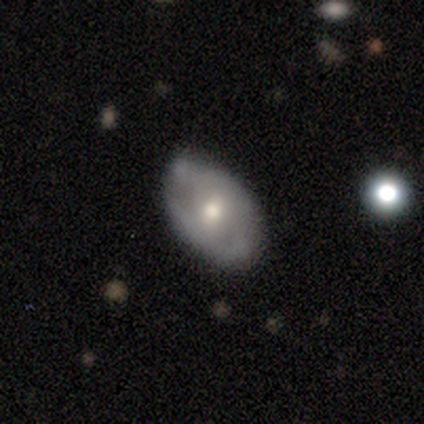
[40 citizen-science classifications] smooth-or-featured: featured or disk: 57% | smooth: 30% | star or artifact: 12%
  disk-edge-on: no: 91% | yes: 9%
    bar: no: 62% | weak: 38% | strong: 0%
    has-spiral-arms: yes: 62% | no: 38%
      spiral-winding: tight: 54% | loose: 31% | medium: 15%
      spiral-arm-count: 2: 54% | can't tell: 38% | 1: 8% | 3: 0% | 4: 0% | more than 4: 0%
    bulge-size: moderate: 62% | small: 38% | dominant: 0% | large: 0% | none: 0%
  merging: none: 69% | minor disturbance: 26% | major disturbance: 3% | merger: 3%